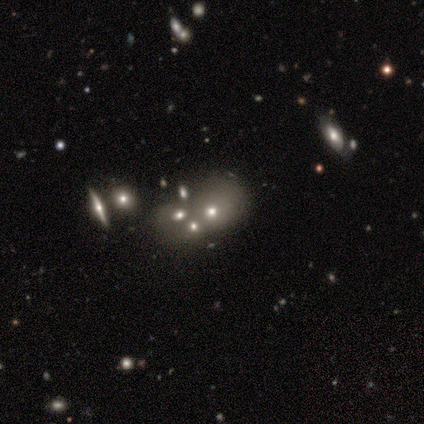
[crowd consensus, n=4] Q: Smooth or featured?
A: smooth (50%); tied with: star or artifact (50%)
Q: How rounded?
A: in between (100%)
Q: Merging?
A: none (50%); tied with: minor disturbance (50%)